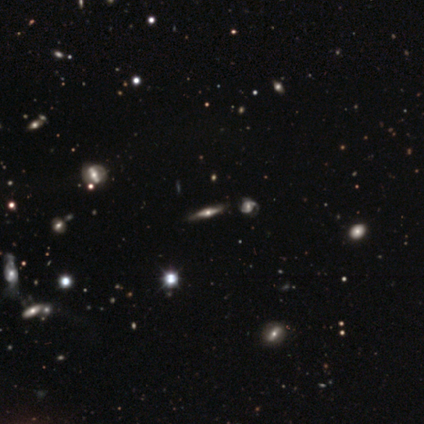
Smooth or featured? featured or disk (70%)
Edge-on disk? yes (89%)
Edge-on bulge? rounded (96%)
Merging? none (76%)